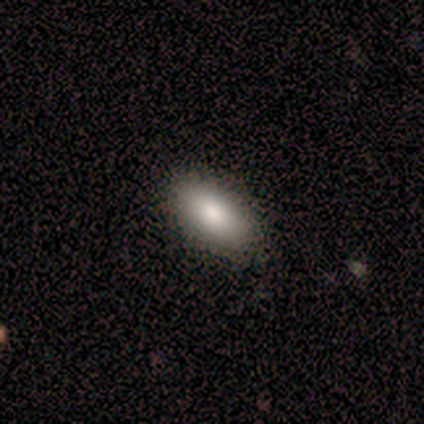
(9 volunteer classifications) Smooth or featured?
  - smooth: 100% *
  - featured or disk: 0%
  - star or artifact: 0%
How rounded?
  - in between: 100% *
  - round: 0%
  - cigar-shaped: 0%
Merging?
  - none: 100% *
  - minor disturbance: 0%
  - major disturbance: 0%
  - merger: 0%